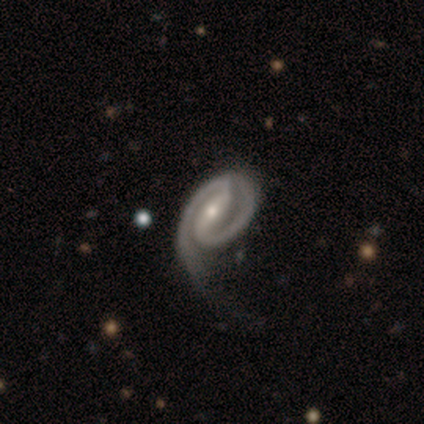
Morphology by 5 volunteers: smooth_or_featured: featured or disk (p=0.80) [alt: smooth p=0.20]
disk_edge_on: no (p=1.00)
bar: strong (p=1.00)
has_spiral_arms: yes (p=1.00)
spiral_winding: medium (p=0.50) [alt: tight p=0.25]
spiral_arm_count: 2 (p=1.00)
bulge_size: small (p=0.75) [alt: moderate p=0.25]
merging: none (p=0.40) [tied with: major disturbance p=0.40]